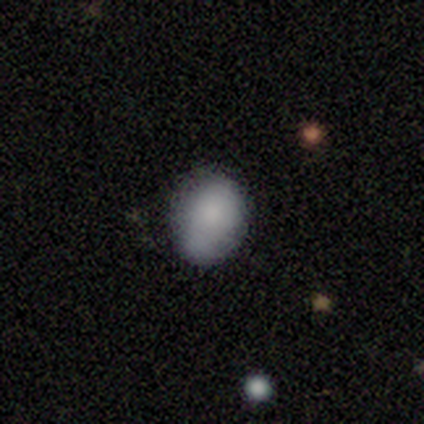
smooth-or-featured: smooth: 100% | featured or disk: 0% | star or artifact: 0%
  how-rounded: in between: 80% | round: 20% | cigar-shaped: 0%
  merging: none: 80% | major disturbance: 20% | minor disturbance: 0% | merger: 0%